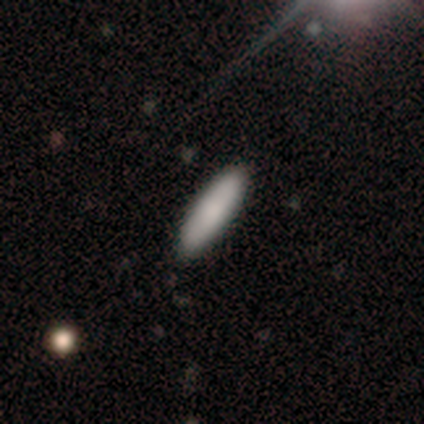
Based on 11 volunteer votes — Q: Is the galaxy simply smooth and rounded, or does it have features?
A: smooth — 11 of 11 (100%).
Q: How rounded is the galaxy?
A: cigar-shaped — 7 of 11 (64%).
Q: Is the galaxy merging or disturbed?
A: none — 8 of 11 (73%).